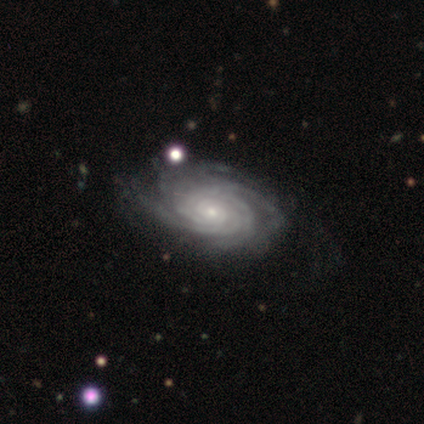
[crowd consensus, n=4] Smooth or featured?
  - featured or disk: 100% *
  - smooth: 0%
  - star or artifact: 0%
Edge-on disk?
  - no: 100% *
  - yes: 0%
Bar?
  - no: 50% *
  - strong: 25%
  - weak: 25%
Spiral arms?
  - yes: 100% *
  - no: 0%
Spiral winding?
  - tight: 100% *
  - medium: 0%
  - loose: 0%
Spiral arm count?
  - more than 4: 75% *
  - 4: 25%
  - 1: 0%
  - 2: 0%
  - 3: 0%
  - can't tell: 0%
Bulge size?
  - small: 75% *
  - moderate: 25%
  - dominant: 0%
  - large: 0%
  - none: 0%
Merging?
  - none: 75% *
  - major disturbance: 25%
  - minor disturbance: 0%
  - merger: 0%